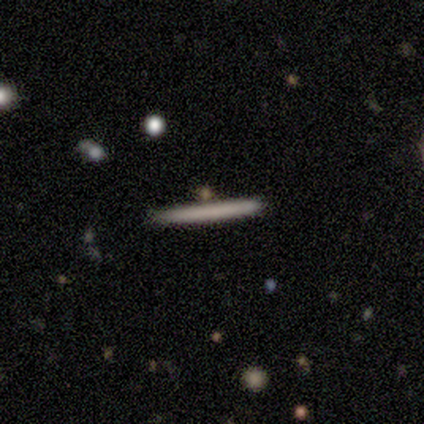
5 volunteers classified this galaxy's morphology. A smooth galaxy with no disk features (80%) that is cigar-shaped (100%).

Vote fractions:
- Smooth or featured? smooth: 80% / featured or disk: 20% / star or artifact: 0%
- How rounded? cigar-shaped: 100% / round: 0% / in between: 0%
- Merging? none: 100% / minor disturbance: 0% / major disturbance: 0% / merger: 0%